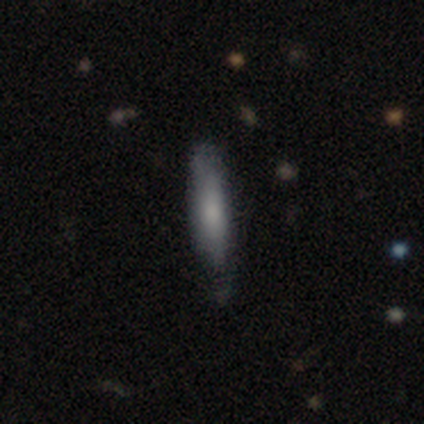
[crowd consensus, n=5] Q: Smooth or featured?
A: smooth (100%)
Q: How rounded?
A: cigar-shaped (60%); runner-up: in between (40%)
Q: Merging?
A: minor disturbance (60%); runner-up: none (40%)